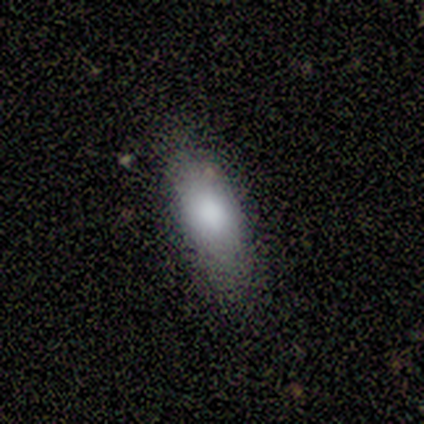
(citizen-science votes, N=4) Volunteers were most divided on "how rounded": in between: 75%, cigar-shaped: 25%, round: 0%. More confident: smooth or featured — smooth (100%); merging — none (75%).